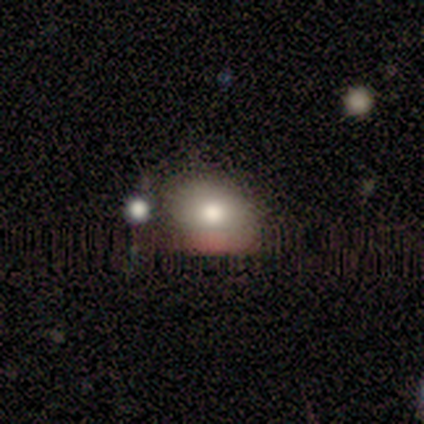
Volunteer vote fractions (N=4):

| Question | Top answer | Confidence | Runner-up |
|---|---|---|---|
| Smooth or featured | smooth | 50% | featured or disk (25%) |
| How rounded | round | 50% | tied: in between (50%) |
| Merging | none | 100% | — |